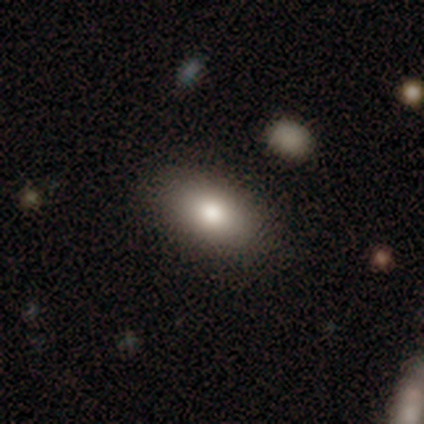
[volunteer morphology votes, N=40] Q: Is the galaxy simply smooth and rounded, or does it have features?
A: smooth — 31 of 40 (78%).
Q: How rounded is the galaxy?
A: in between — 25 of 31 (81%).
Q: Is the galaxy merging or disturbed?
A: none — 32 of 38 (84%).